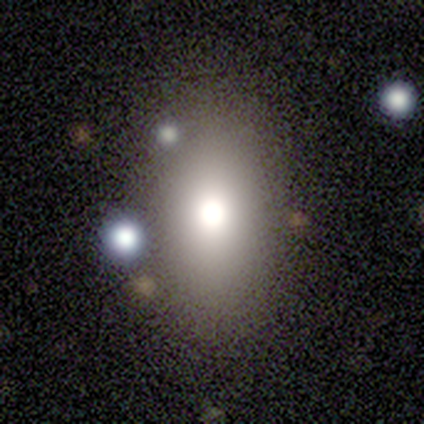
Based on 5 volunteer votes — Volunteers were most divided on "smooth or featured": smooth: 60%, featured or disk: 40%, star or artifact: 0%. More confident: merging — none (80%); how rounded — round (67%).